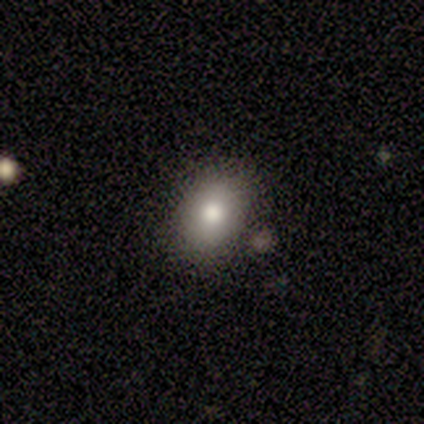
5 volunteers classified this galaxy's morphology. A smooth galaxy with no disk features (100%) that is in between round and cigar-shaped (100%). Merging: none (80%).